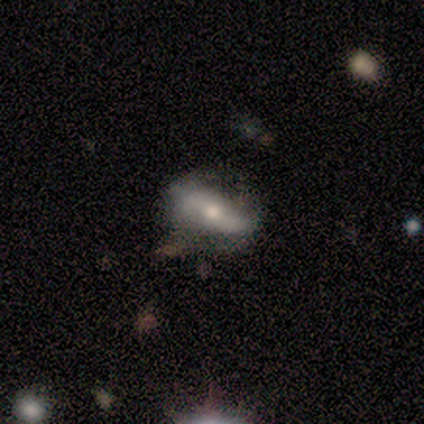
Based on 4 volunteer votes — Smooth or featured?
  - featured or disk: 50% *
  - smooth: 25%
  - star or artifact: 25%
Edge-on disk?
  - yes: 50% * (tied)
  - no: 50% * (tied)
Edge-on bulge?
  - rounded: 100% *
  - boxy: 0%
  - none: 0%
Merging?
  - none: 100% *
  - minor disturbance: 0%
  - major disturbance: 0%
  - merger: 0%